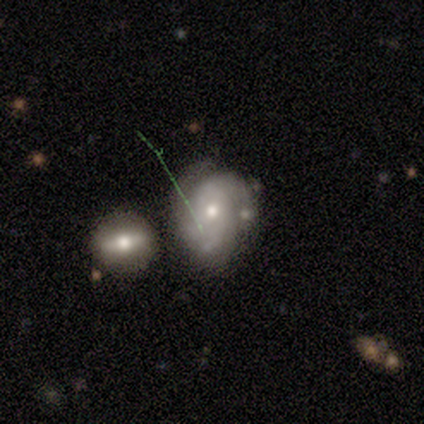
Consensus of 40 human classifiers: This appears to be a featured or disk galaxy (72%) with no bar (90%), 3 (42%) tight (58%) spiral arms (83%) and a moderate central bulge (69%). Merging: none (44%).